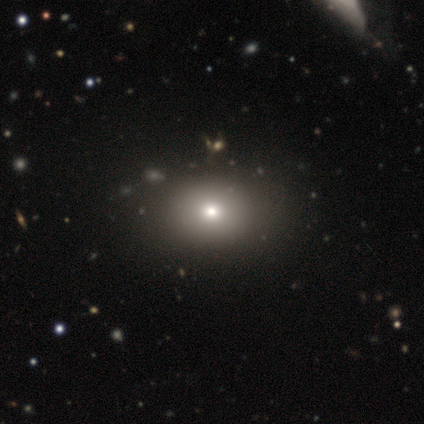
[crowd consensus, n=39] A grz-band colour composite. It shows a smooth galaxy with no disk features (69%) that is in between round and cigar-shaped (59%). Merging: none (90%).